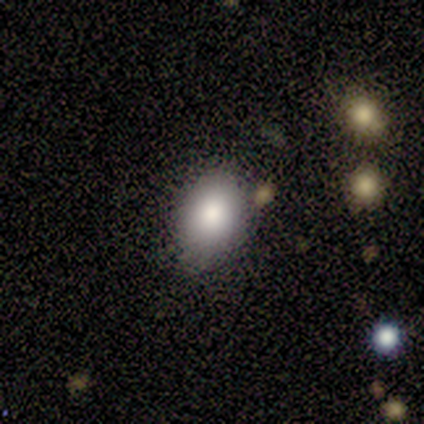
Q: Smooth or featured?
A: smooth (62%); runner-up: featured or disk (38%)
Q: How rounded?
A: in between (60%); runner-up: round (40%)
Q: Merging?
A: none (75%); runner-up: minor disturbance (25%)